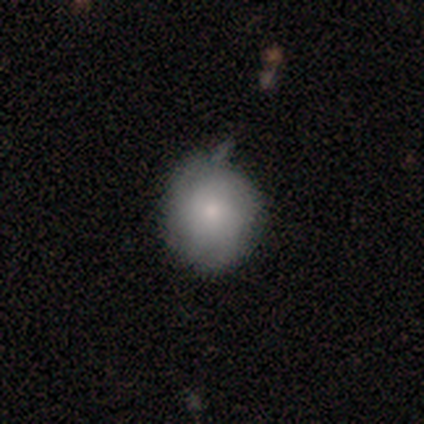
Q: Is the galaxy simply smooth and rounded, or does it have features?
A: smooth — 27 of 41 (66%).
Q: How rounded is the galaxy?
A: round — 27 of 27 (100%).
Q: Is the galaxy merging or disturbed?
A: none — 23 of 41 (56%).